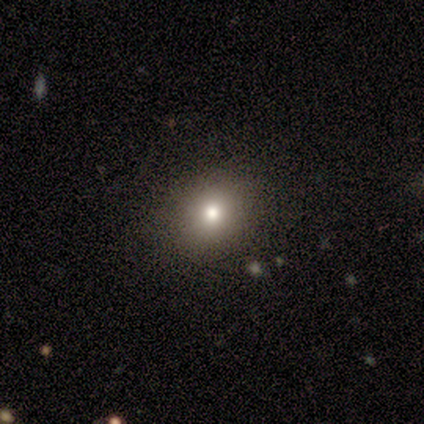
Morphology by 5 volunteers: Smooth or featured?
  - featured or disk: 60% *
  - smooth: 20%
  - star or artifact: 20%
Edge-on disk?
  - no: 67% *
  - yes: 33%
Bar?
  - no: 100% *
  - strong: 0%
  - weak: 0%
Spiral arms?
  - no: 100% *
  - yes: 0%
Bulge size?
  - small: 100% *
  - dominant: 0%
  - large: 0%
  - moderate: 0%
  - none: 0%
Merging?
  - none: 100% *
  - minor disturbance: 0%
  - major disturbance: 0%
  - merger: 0%